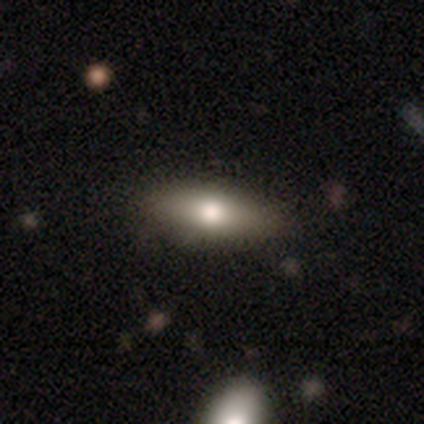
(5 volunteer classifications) Smooth or featured: smooth — 100%
How rounded: in between — 80% (cigar-shaped — 20%)
Merging: none — 60% (minor disturbance — 40%)